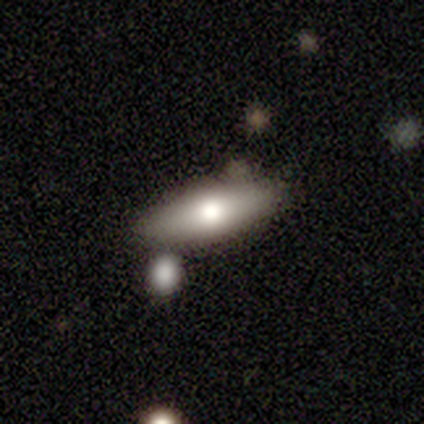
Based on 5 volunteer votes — smooth_or_featured: smooth (p=1.00)
how_rounded: in between (p=0.60) [alt: cigar-shaped p=0.40]
merging: none (p=0.80) [alt: merger p=0.20]